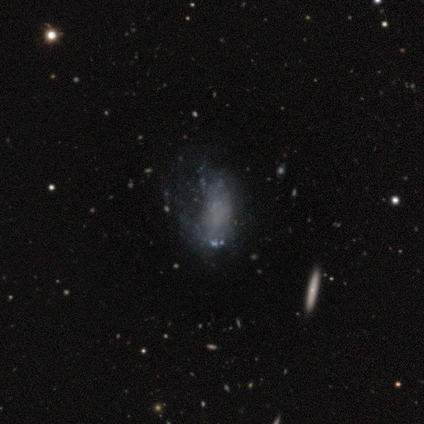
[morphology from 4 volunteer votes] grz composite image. It shows a featured or disk galaxy (100%) with no bar (100%), no spiral arms (75%) and no central bulge (100%). Merging: none (50%, tied with minor disturbance).